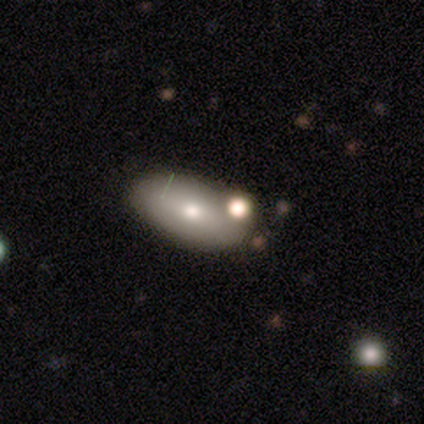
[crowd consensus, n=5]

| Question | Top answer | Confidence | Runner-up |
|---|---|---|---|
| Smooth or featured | smooth | 60% | star or artifact (40%) |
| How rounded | in between | 100% | — |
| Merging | none | 67% | merger (33%) |